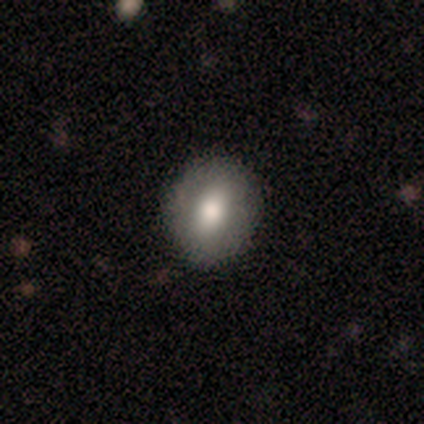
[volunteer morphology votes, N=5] smooth-or-featured: smooth: 80% | featured or disk: 20% | star or artifact: 0%
  how-rounded: in between: 75% | round: 25% | cigar-shaped: 0%
  merging: none: 40% (tied) | minor disturbance: 40% (tied) | major disturbance: 20% | merger: 0%